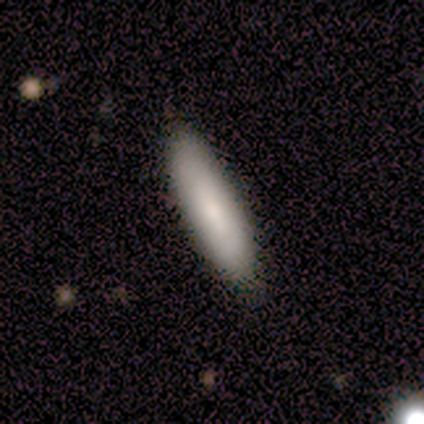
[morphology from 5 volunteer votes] Q: Smooth or featured?
A: featured or disk (60%); runner-up: smooth (40%)
Q: Edge-on disk?
A: no (100%)
Q: Bar?
A: no (100%)
Q: Spiral arms?
A: yes (67%); runner-up: no (33%)
Q: Spiral winding?
A: tight (50%); tied with: loose (50%)
Q: Spiral arm count?
A: can't tell (100%)
Q: Bulge size?
A: small (67%); runner-up: moderate (33%)
Q: Merging?
A: none (80%); runner-up: minor disturbance (20%)